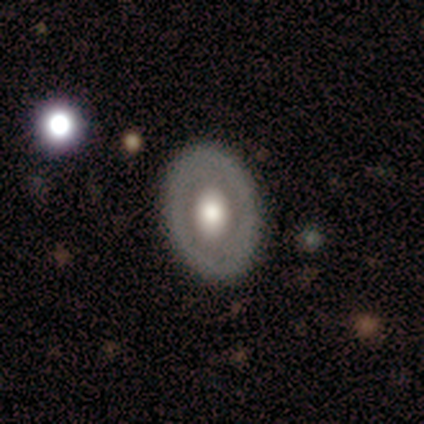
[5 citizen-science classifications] Volunteers were most divided on "how rounded" (3-way tie): round: 33%, in between: 33%, cigar-shaped: 33%. More confident: smooth or featured — smooth (60%); merging — none (60%).